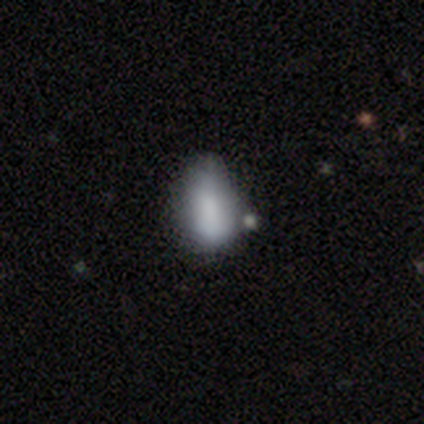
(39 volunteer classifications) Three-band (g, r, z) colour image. It shows a smooth galaxy with no disk features (82%) that is in between round and cigar-shaped (91%). Merging: minor disturbance (46%).